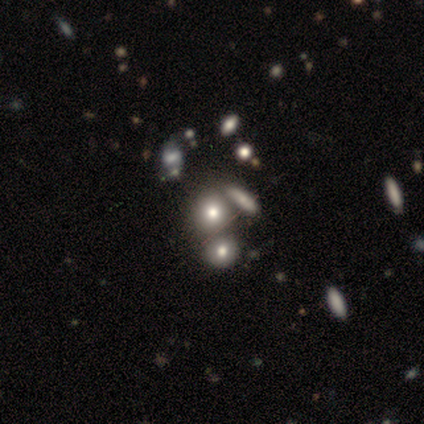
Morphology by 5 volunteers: Smooth or featured? 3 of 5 (60%) said smooth. How rounded? 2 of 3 (67%) said round. Merging? 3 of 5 (60%) said none.